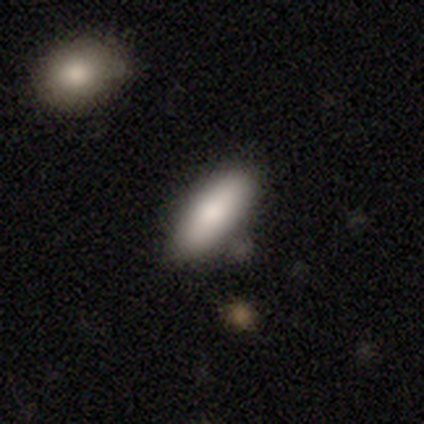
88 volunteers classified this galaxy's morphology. type=smooth (78%); roundness=in between (71%); merging=none (80%).